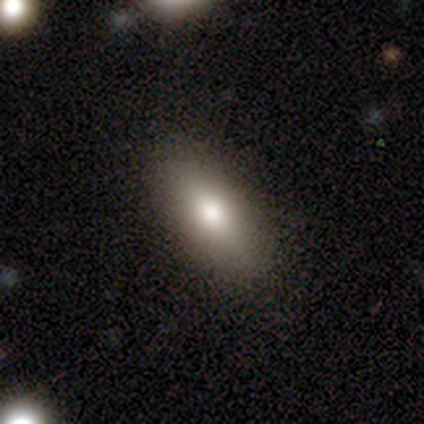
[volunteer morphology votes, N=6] Volunteers were most divided on "smooth or featured": smooth: 83%, featured or disk: 17%, star or artifact: 0%. More confident: how rounded — in between (100%); merging — none (100%).